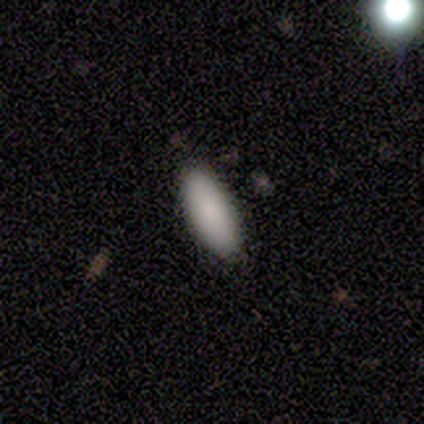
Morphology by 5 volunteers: Smooth or featured? smooth (100%)
How rounded? in between (60%)
Merging? none (80%)